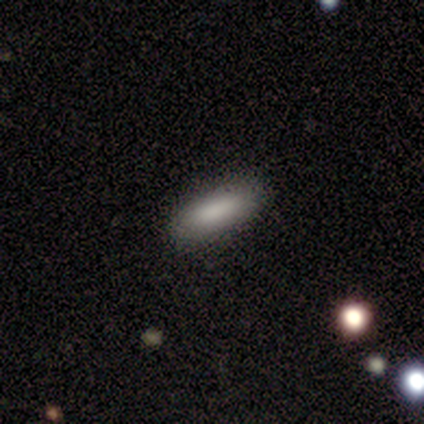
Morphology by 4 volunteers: A smooth galaxy with no disk features (100%) that is in between round and cigar-shaped (75%).

Vote fractions:
- Smooth or featured? smooth: 100% / featured or disk: 0% / star or artifact: 0%
- How rounded? in between: 75% / cigar-shaped: 25% / round: 0%
- Merging? none: 100% / minor disturbance: 0% / major disturbance: 0% / merger: 0%